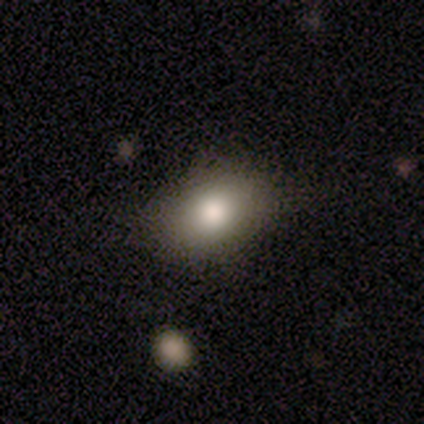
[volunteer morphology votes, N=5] Smooth or featured: smooth — 80% (featured or disk — 20%)
How rounded: in between — 75% (round — 25%)
Merging: none — 80% (minor disturbance — 20%)